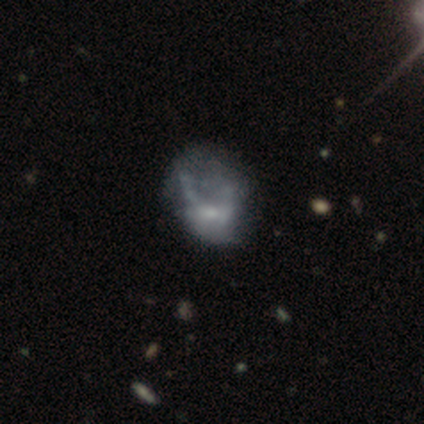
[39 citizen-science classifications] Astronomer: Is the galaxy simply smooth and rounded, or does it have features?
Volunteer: featured or disk — 59%.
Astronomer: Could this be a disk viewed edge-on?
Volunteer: no — 96%.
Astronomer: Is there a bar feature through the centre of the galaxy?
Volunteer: no — 77%.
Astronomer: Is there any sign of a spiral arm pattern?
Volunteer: no — 68%.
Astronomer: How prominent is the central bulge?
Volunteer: small — 45% (runner-up: moderate, 27%).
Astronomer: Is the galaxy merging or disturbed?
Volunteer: major disturbance — 41% (runner-up: none, 32%).